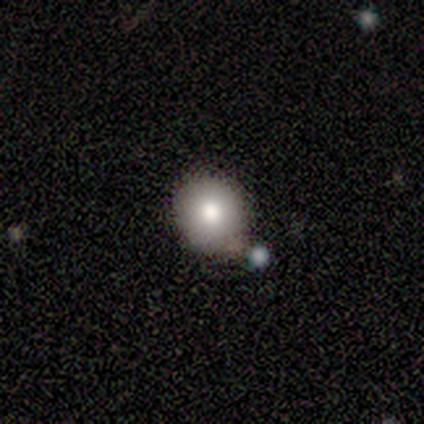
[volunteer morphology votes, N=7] type=smooth (43%); roundness=round (67%); merging=none (60%).